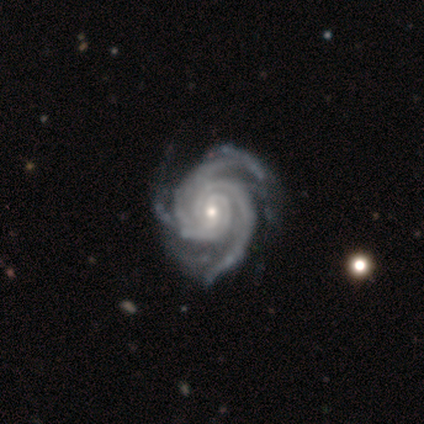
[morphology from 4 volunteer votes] This appears to be a featured or disk galaxy (100%) with no bar (75%), 3 (75%) tight (75%) spiral arms (100%) and a small central bulge (75%). Merging: none (75%).